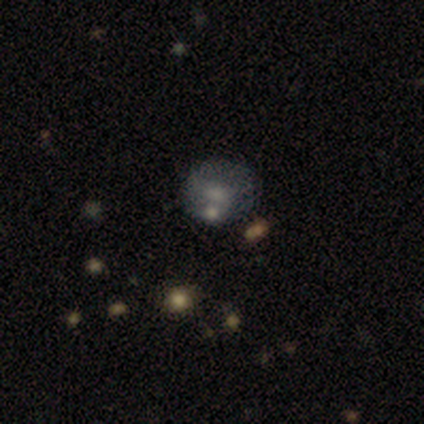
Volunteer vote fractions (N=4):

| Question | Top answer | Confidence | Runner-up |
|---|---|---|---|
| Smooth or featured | featured or disk | 50% | smooth (25%) |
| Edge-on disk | no | 100% | — |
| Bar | weak | 50% | tied: no (50%) |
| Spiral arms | yes | 50% | tied: no (50%) |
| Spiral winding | tight | 100% | — |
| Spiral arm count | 2 | 100% | — |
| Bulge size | small | 100% | — |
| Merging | none | 67% | minor disturbance (33%) |